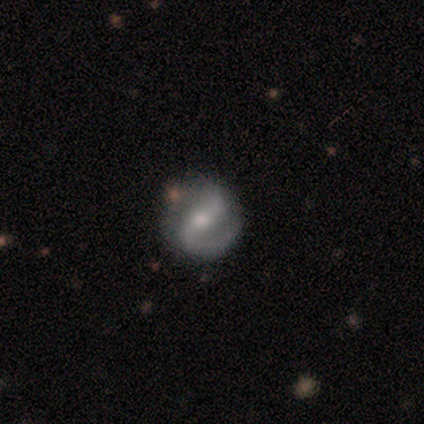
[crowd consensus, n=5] Overall: featured or disk (80%). Edge-on disk: no (75%). Bar: no (67%; strong 33%). Spiral arms: yes (100%). Spiral arm count: 2 (100%). Spiral winding: tight (33%, tied with medium and loose). Bulge size: moderate (100%). Merging: none (60%; minor disturbance 40%).